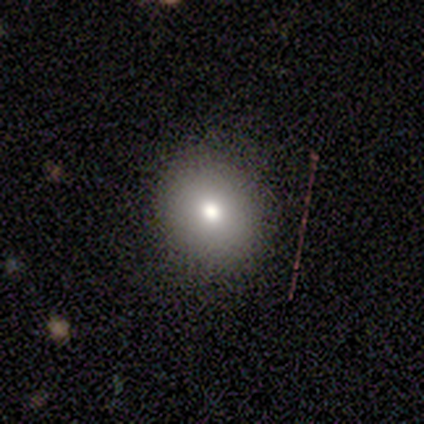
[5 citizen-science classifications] Smooth or featured: smooth — 100%
How rounded: round — 80% (in between — 20%)
Merging: none — 80% (minor disturbance — 20%)